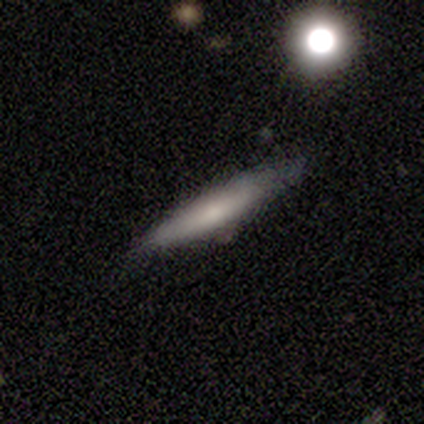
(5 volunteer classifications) A smooth galaxy with no disk features (80%) that is cigar-shaped (100%).

Vote fractions:
- Smooth or featured? smooth: 80% / star or artifact: 20% / featured or disk: 0%
- How rounded? cigar-shaped: 100% / round: 0% / in between: 0%
- Merging? minor disturbance: 50% / none: 25% / major disturbance: 25% / merger: 0%